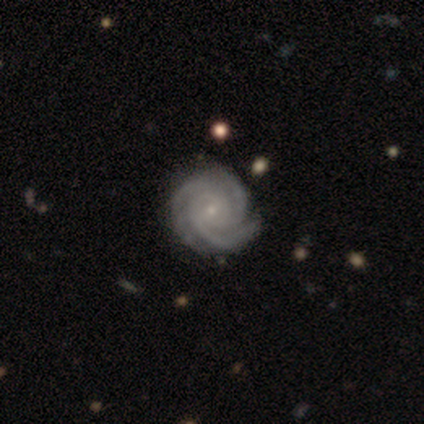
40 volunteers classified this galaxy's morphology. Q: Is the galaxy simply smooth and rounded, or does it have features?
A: featured or disk — 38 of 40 (95%).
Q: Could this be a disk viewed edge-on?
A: no — 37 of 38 (97%).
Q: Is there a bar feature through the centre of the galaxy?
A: no — 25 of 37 (68%).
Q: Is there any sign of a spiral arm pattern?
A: yes — 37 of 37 (100%).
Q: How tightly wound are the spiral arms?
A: tight — 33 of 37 (89%).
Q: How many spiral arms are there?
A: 3 — 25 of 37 (68%).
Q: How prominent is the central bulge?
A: small — 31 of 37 (84%).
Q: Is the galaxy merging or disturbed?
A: none — 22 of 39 (56%).